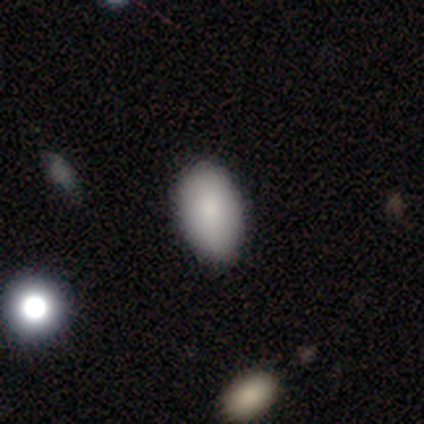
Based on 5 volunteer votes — Smooth or featured? smooth (80%)
How rounded? in between (100%)
Merging? none (80%)